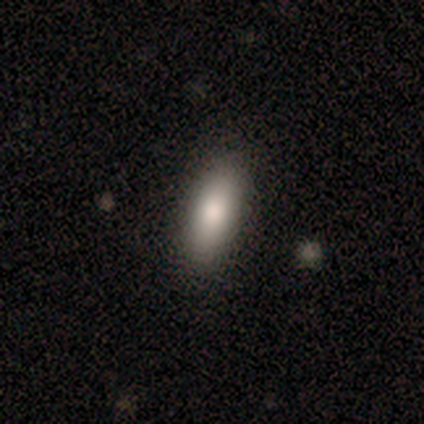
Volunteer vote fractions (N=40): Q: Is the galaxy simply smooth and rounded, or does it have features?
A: smooth — 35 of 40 (88%).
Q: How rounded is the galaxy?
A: in between — 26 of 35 (74%).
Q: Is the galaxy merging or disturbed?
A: none — 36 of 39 (92%).